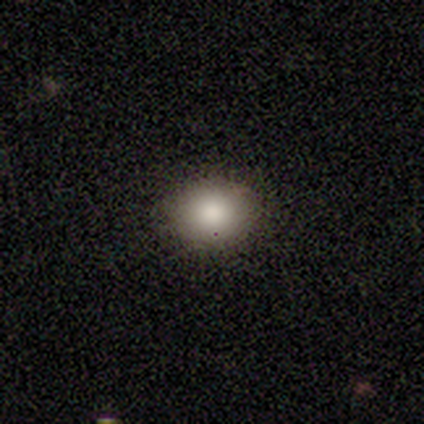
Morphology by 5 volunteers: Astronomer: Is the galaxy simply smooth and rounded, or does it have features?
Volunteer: smooth — 60%.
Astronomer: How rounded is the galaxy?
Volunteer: in between — 67%.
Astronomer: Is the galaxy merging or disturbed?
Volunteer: none — 100%.